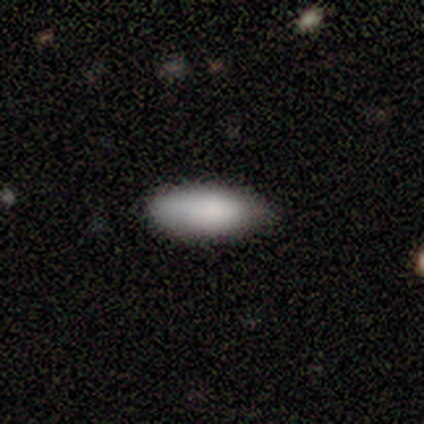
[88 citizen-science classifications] This is clearly a smooth galaxy (85%). How rounded: likely in between (69%). Merging: likely none (78%).